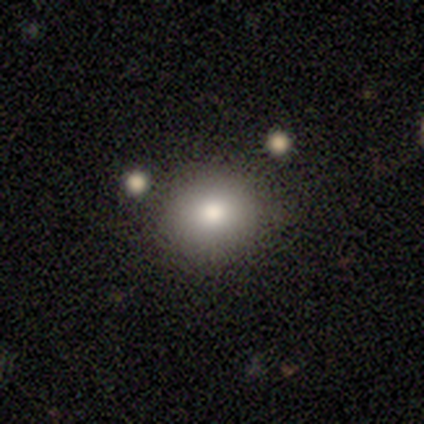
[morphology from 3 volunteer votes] A smooth galaxy with no disk features (100%) that is round (100%). Merging: none (100%).